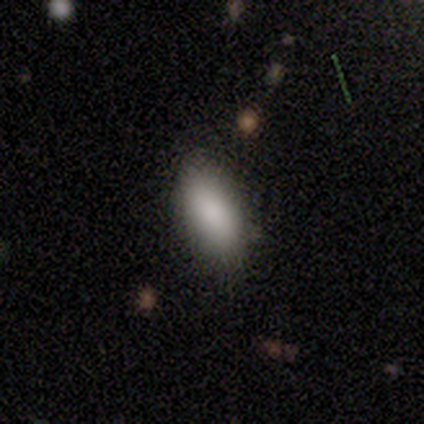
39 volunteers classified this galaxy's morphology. Smooth or featured: smooth — 87% (star or artifact — 8%)
How rounded: in between — 91% (cigar-shaped — 9%)
Merging: none — 81% (minor disturbance — 11%)